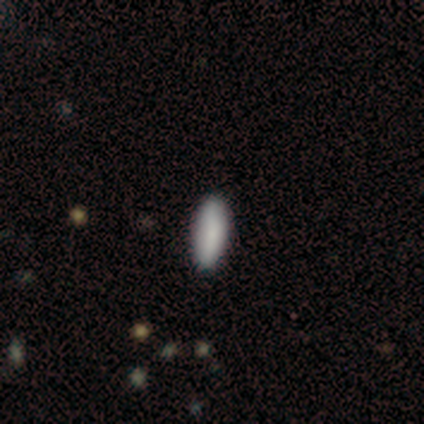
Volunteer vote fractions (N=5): Overall: smooth (80%). How rounded: in between (50%, tied with cigar-shaped). Merging: none (100%).